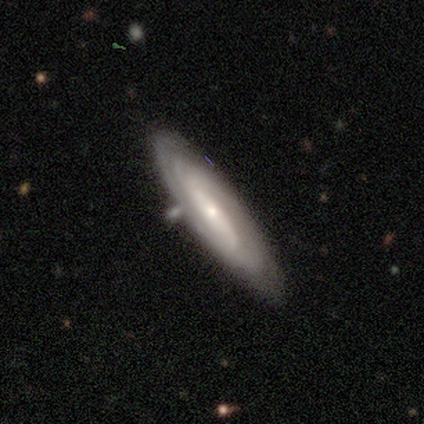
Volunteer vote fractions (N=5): Volunteers were most divided on "bulge size" (2-way tie): moderate: 50%, small: 50%, dominant: 0%, large: 0%, none: 0%. More confident: edge-on disk — no (100%); spiral arms — yes (100%); merging — none (100%); smooth or featured — featured or disk (80%); bar — strong (75%); spiral winding — tight (75%); spiral arm count — can't tell (50%).